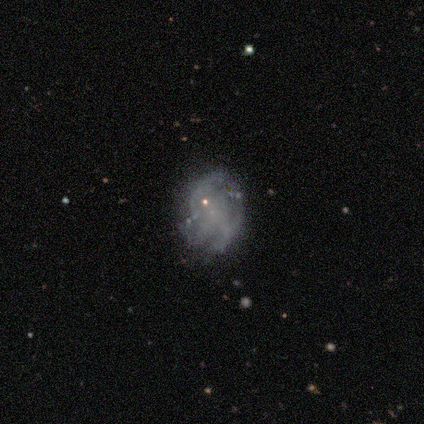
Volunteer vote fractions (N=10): Morphology: type=featured or disk (40%, tied with star or artifact); edge-on=no (100%); bar=no (100%); spiral arms=no (100%); bulge=small (50%, tied with none); merging=none (67%).